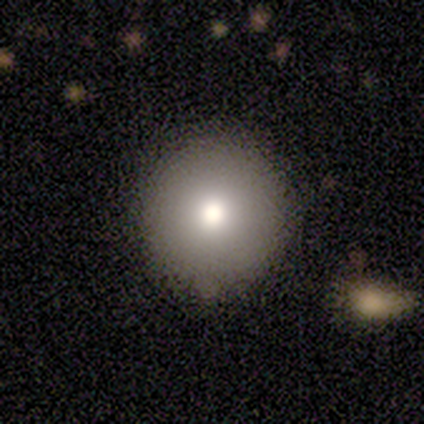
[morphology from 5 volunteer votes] This is marginally a smooth galaxy (40%, tied with featured or disk). How rounded: clearly round (100%). Merging: possibly none (50%).